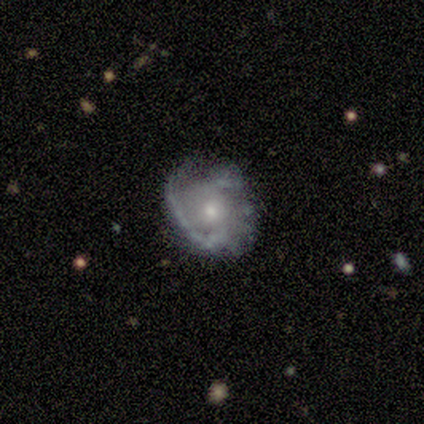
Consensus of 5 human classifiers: This is clearly a featured or disk galaxy (100%). It is clearly not viewed edge-on (100%). Bar: likely no (60%). Spiral arm pattern: clearly yes (80%). Spiral arm count: possibly 1 (50%, tied with 2). Spiral winding: possibly loose (50%). Central bulge: likely small (60%). Merging: likely none (60%).